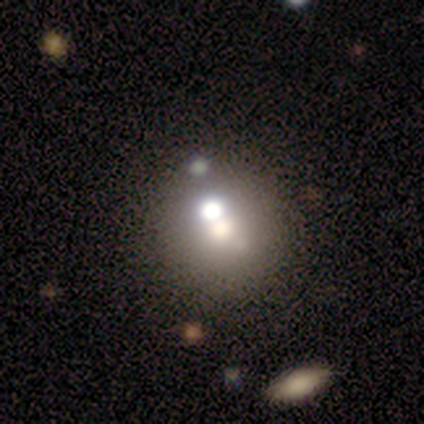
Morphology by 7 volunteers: Smooth or featured? 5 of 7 (71%) said smooth. How rounded? 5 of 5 (100%) said round. Merging? 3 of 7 (43%) said minor disturbance.